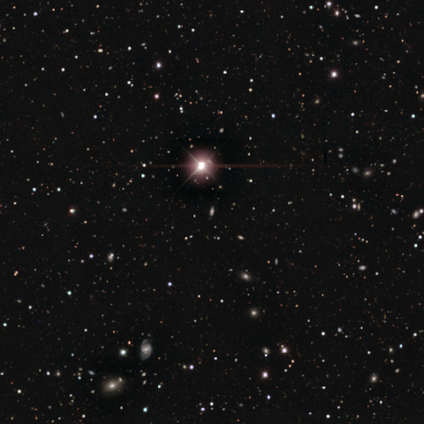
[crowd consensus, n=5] Q: Smooth or featured?
A: star or artifact (60%); runner-up: smooth (20%)